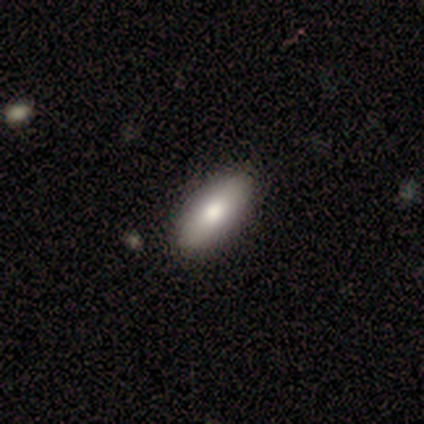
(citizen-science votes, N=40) smooth-or-featured: smooth: 80% | featured or disk: 12% | star or artifact: 8%
  how-rounded: in between: 88% | cigar-shaped: 12% | round: 0%
  merging: none: 57% | merger: 11% | minor disturbance: 5% | major disturbance: 0%